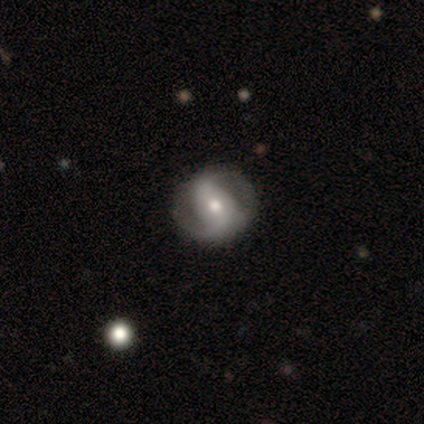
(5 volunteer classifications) Smooth or featured? featured or disk (80%)
Edge-on disk? no (100%)
Bar? weak (50%, tied with no)
Spiral arms? yes (100%)
Spiral winding? tight (75%)
Spiral arm count? 2 (100%)
Bulge size? moderate (100%)
Merging? none (60%)